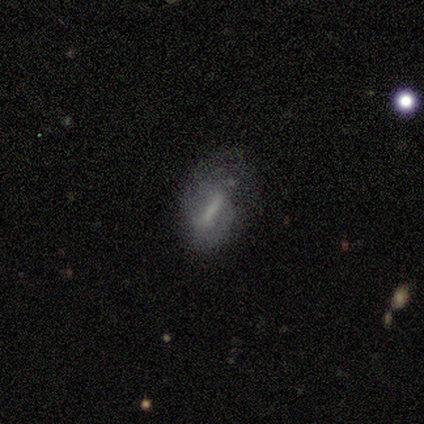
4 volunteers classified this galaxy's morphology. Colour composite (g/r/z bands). It shows a featured or disk galaxy (75%) with a strong bar (67%), 2 (50%, tied with can't tell) medium (100%) spiral arms (67%) and no central bulge (67%). Merging: minor disturbance (67%).